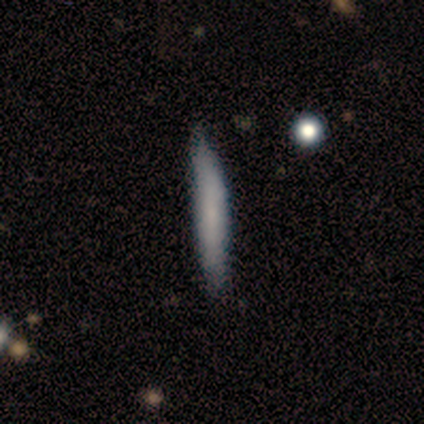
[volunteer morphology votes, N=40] type=smooth (62%); roundness=cigar-shaped (100%); merging=none (63%).